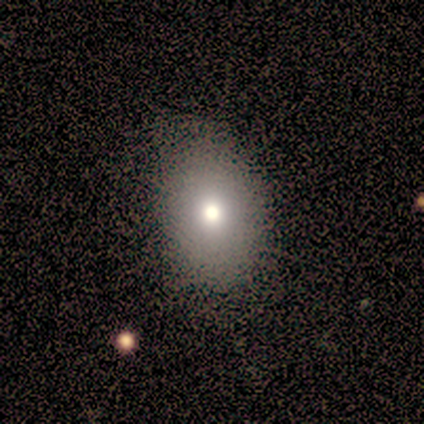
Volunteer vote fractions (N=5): Smooth or featured?
  - smooth: 100% *
  - featured or disk: 0%
  - star or artifact: 0%
How rounded?
  - in between: 80% *
  - round: 20%
  - cigar-shaped: 0%
Merging?
  - none: 80% *
  - major disturbance: 20%
  - minor disturbance: 0%
  - merger: 0%